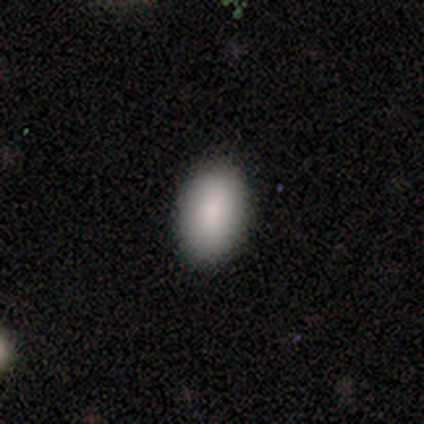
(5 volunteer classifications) Q: Smooth or featured?
A: smooth (100%)
Q: How rounded?
A: in between (100%)
Q: Merging?
A: none (100%)